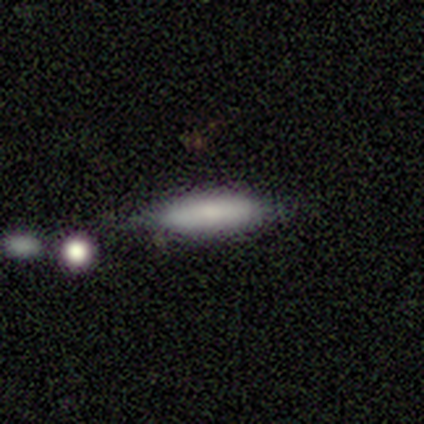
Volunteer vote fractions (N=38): Smooth or featured? 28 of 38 (74%) said smooth. How rounded? 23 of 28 (82%) said cigar-shaped. Merging? 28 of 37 (76%) said none.